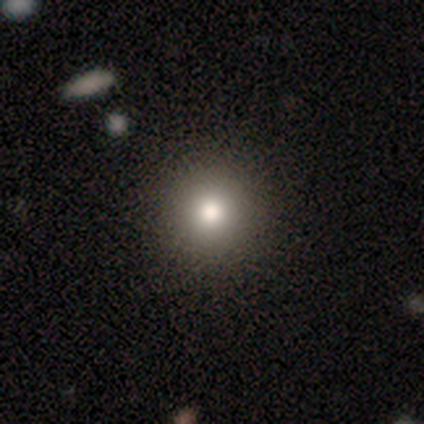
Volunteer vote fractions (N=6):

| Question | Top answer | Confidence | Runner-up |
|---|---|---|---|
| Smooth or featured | smooth | 67% | star or artifact (33%) |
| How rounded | round | 100% | — |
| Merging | none | 100% | — |